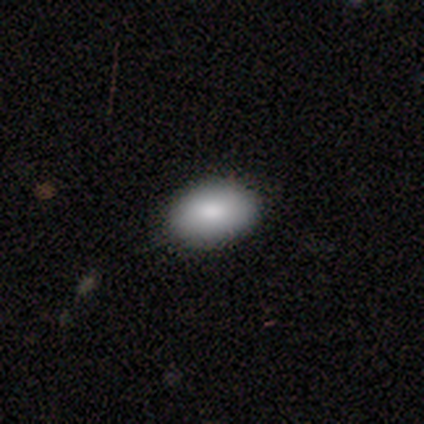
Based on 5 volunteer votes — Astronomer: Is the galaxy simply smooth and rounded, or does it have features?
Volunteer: smooth — 100%.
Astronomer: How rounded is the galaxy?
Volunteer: in between — 100%.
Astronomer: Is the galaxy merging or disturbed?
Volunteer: none — 100%.